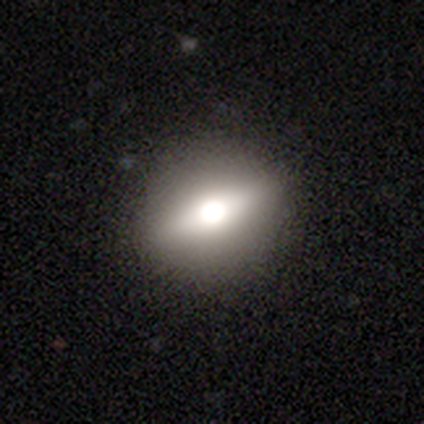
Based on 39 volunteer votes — Morphology: type=smooth (49%, tied with featured or disk); roundness=round (53%); merging=none (84%).